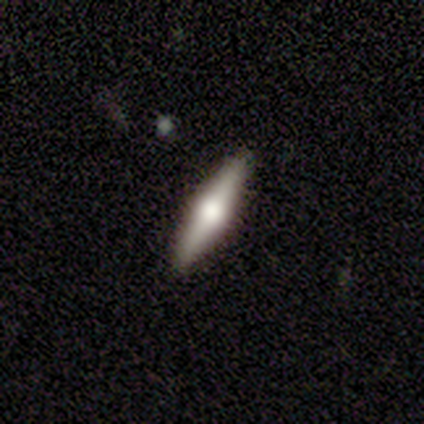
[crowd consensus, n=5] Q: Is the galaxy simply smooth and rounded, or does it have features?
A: smooth — 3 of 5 (60%).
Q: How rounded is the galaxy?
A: cigar-shaped — 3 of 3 (100%).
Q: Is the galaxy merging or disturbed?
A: none — 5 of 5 (100%).